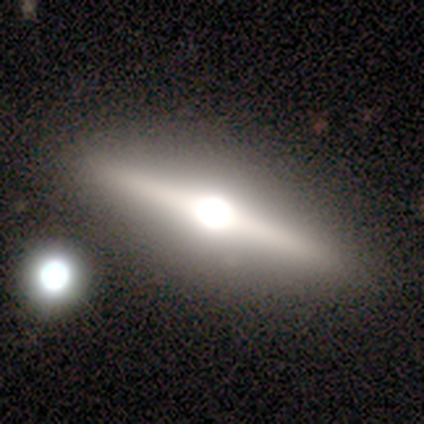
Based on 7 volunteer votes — This is possibly a featured or disk galaxy (57%). It is likely viewed edge-on (75%). Edge-on bulge: clearly rounded (100%). Merging: likely none (67%).